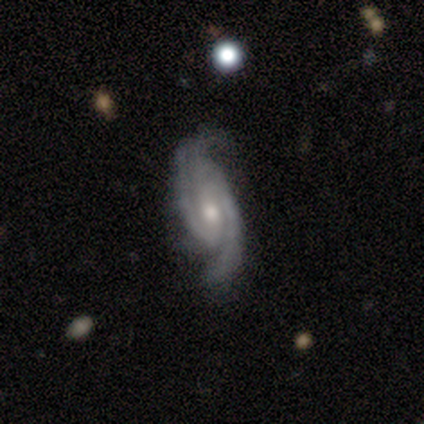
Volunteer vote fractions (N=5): Smooth or featured?
  - featured or disk: 100% *
  - smooth: 0%
  - star or artifact: 0%
Edge-on disk?
  - no: 100% *
  - yes: 0%
Bar?
  - strong: 40% * (tied)
  - no: 40% * (tied)
  - weak: 20%
Spiral arms?
  - yes: 80% *
  - no: 20%
Spiral winding?
  - tight: 50% * (tied)
  - medium: 50% * (tied)
  - loose: 0%
Spiral arm count?
  - 2: 50% *
  - 4: 25%
  - can't tell: 25%
  - 1: 0%
  - 3: 0%
  - more than 4: 0%
Bulge size?
  - moderate: 60% *
  - small: 40%
  - dominant: 0%
  - large: 0%
  - none: 0%
Merging?
  - none: 60% *
  - minor disturbance: 40%
  - major disturbance: 0%
  - merger: 0%